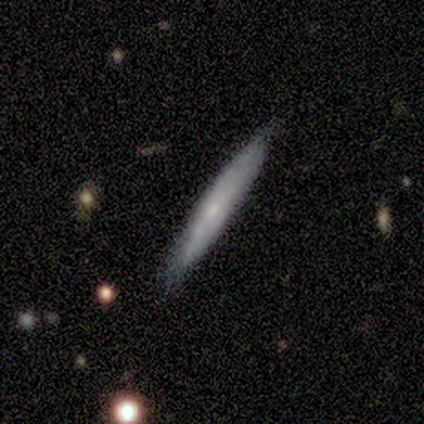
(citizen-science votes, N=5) This appears to be a smooth galaxy with no disk features (80%) that is cigar-shaped (100%). Merging: none (80%).